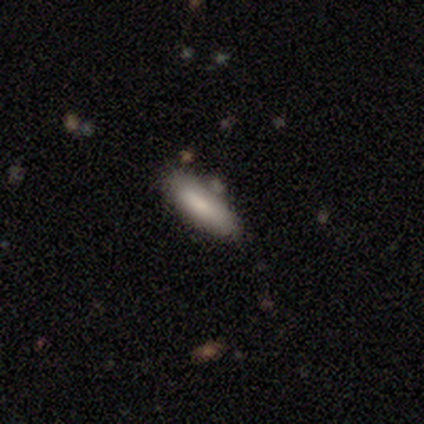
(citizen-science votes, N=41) Volunteers were most divided on "how rounded": in between: 70%, cigar-shaped: 30%, round: 0%. More confident: smooth or featured — smooth (80%); merging — none (78%).